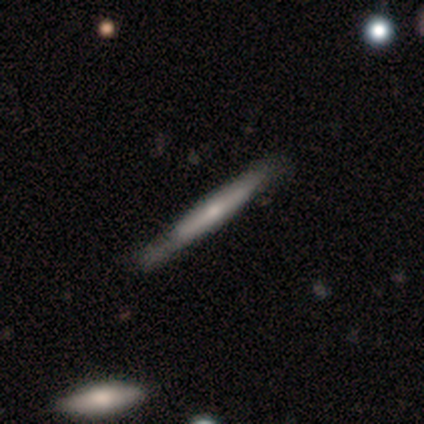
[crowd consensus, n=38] smooth-or-featured: featured or disk: 63% | smooth: 34% | star or artifact: 3%
  disk-edge-on: yes: 100% | no: 0%
    edge-on-bulge: none: 46% (tied) | rounded: 46% (tied) | boxy: 8%
  merging: none: 76% | minor disturbance: 24% | major disturbance: 0% | merger: 0%